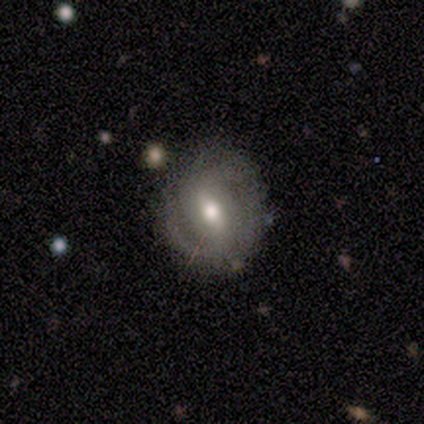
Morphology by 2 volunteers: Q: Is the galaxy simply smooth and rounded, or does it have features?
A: featured or disk — 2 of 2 (100%).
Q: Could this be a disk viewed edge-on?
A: no — 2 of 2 (100%).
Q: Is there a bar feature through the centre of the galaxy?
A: strong — 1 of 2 (50%, tied with weak).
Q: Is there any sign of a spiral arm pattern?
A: yes — 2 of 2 (100%).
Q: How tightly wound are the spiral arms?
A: tight — 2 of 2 (100%).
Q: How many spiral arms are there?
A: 2 — 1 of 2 (50%, tied with can't tell).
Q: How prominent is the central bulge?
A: moderate — 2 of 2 (100%).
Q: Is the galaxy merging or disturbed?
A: none — 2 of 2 (100%).